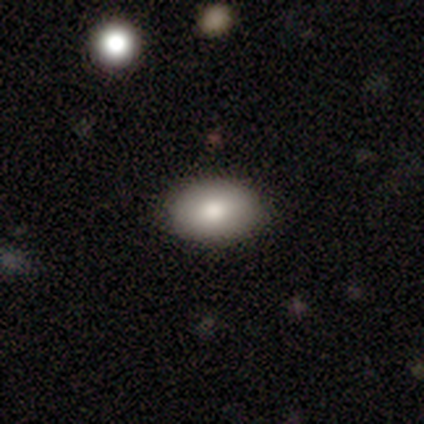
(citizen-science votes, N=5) Smooth or featured? 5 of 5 (100%) said smooth. How rounded? 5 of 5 (100%) said in between. Merging? 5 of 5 (100%) said none.